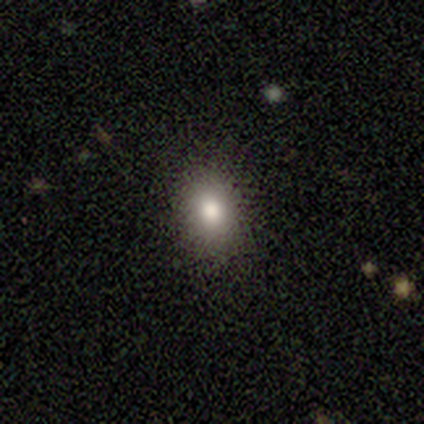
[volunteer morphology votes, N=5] smooth-or-featured: smooth: 60% | featured or disk: 40% | star or artifact: 0%
  how-rounded: round: 67% | in between: 33% | cigar-shaped: 0%
  merging: none: 100% | minor disturbance: 0% | major disturbance: 0% | merger: 0%